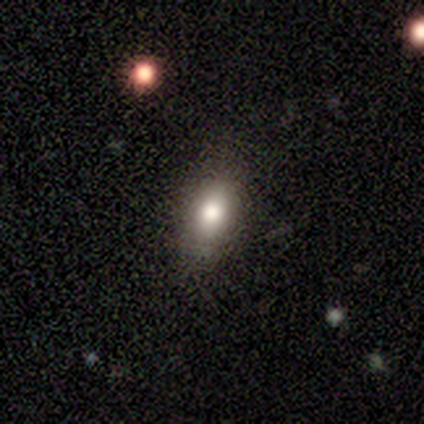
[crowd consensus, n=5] Morphology: type=featured or disk (60%); edge-on=yes (67%); edge-on bulge=rounded (100%); merging=none (60%).